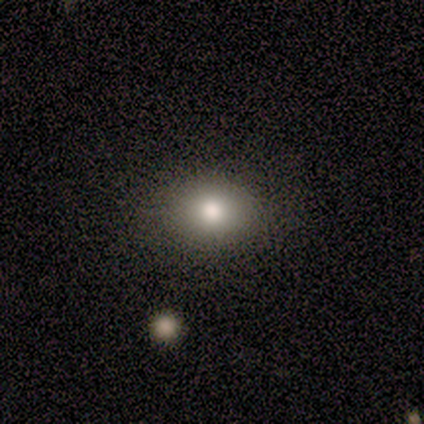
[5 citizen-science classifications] Q: Smooth or featured?
A: smooth (80%); runner-up: star or artifact (20%)
Q: How rounded?
A: round (75%); runner-up: in between (25%)
Q: Merging?
A: none (100%)